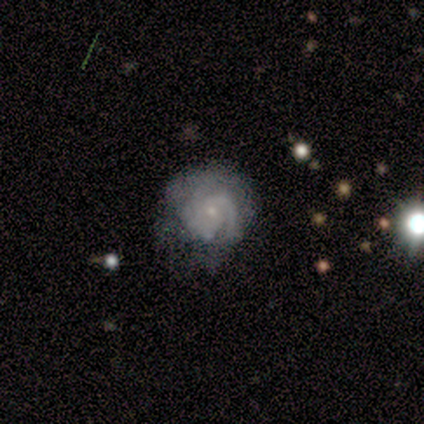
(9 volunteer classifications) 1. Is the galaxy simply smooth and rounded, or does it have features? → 44% featured or disk, 33% smooth, 22% star or artifact.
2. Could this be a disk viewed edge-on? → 75% no, 25% yes.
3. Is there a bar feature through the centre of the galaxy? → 100% no, 0% strong, 0% weak.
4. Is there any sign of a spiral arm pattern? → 100% yes, 0% no.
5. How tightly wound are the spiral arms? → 100% tight, 0% medium, 0% loose.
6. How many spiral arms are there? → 100% 3, 0% 1, 0% 2, 0% 4, 0% more than 4, 0% can't tell.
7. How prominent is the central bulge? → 100% small, 0% dominant, 0% large, 0% moderate, 0% none.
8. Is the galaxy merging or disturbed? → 43% minor disturbance, 29% major disturbance, 14% none, 14% merger.